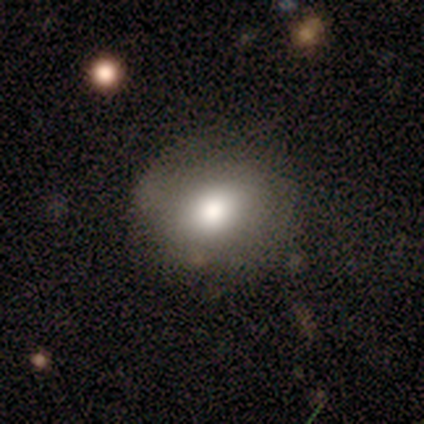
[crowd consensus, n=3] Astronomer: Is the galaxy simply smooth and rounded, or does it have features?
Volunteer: smooth — 100%.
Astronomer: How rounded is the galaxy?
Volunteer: round — 100%.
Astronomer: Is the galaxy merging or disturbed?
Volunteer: none — 100%.